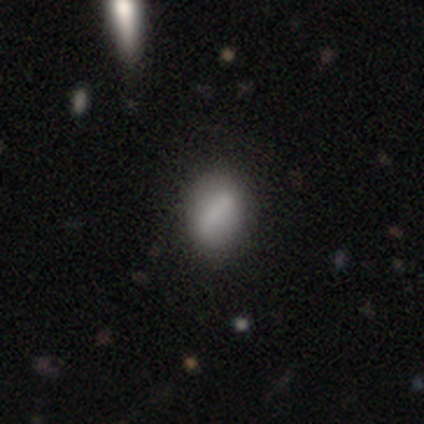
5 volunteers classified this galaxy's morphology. type=smooth (60%); roundness=in between (100%); merging=none (60%).